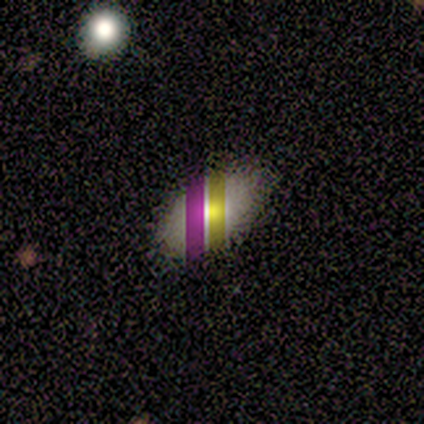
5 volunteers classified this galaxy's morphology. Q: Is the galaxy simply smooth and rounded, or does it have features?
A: smooth — 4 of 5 (80%).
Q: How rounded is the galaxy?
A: in between — 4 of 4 (100%).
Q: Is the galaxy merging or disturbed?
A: none — 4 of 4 (100%).